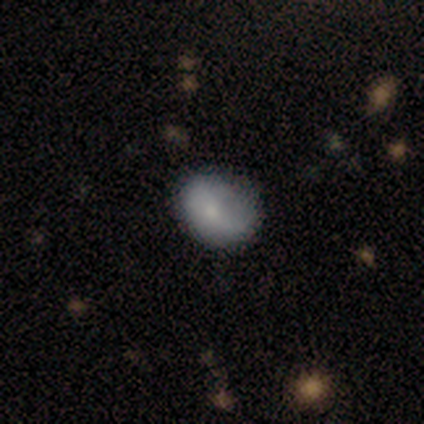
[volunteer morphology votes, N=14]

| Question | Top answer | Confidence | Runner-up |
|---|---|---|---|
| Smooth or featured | smooth | 71% | featured or disk (29%) |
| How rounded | in between | 90% | round (10%) |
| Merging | none | 64% | minor disturbance (29%) |